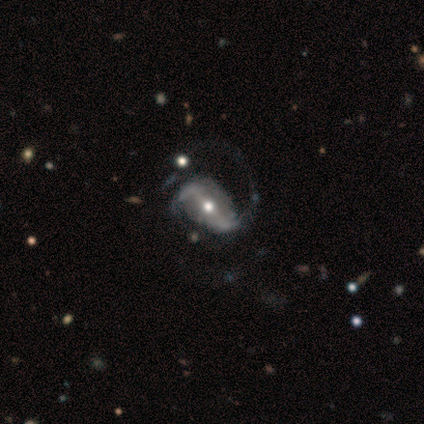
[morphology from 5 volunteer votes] Smooth or featured?
  - featured or disk: 80% *
  - star or artifact: 20%
  - smooth: 0%
Edge-on disk?
  - no: 100% *
  - yes: 0%
Bar?
  - strong: 75% *
  - weak: 25%
  - no: 0%
Spiral arms?
  - yes: 100% *
  - no: 0%
Spiral winding?
  - loose: 75% *
  - medium: 25%
  - tight: 0%
Spiral arm count?
  - 2: 75% *
  - can't tell: 25%
  - 1: 0%
  - 3: 0%
  - 4: 0%
  - more than 4: 0%
Bulge size?
  - moderate: 75% *
  - small: 25%
  - dominant: 0%
  - large: 0%
  - none: 0%
Merging?
  - major disturbance: 50% *
  - none: 25%
  - minor disturbance: 25%
  - merger: 0%